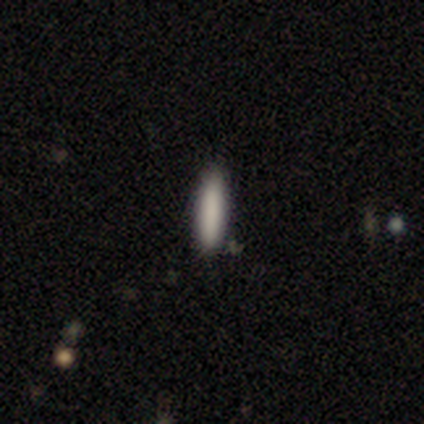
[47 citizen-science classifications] Overall: smooth (85%). How rounded: cigar-shaped (82%). Merging: none (89%).